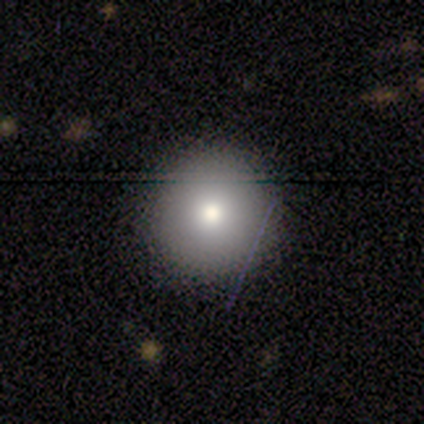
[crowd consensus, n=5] This appears to be a featured or disk galaxy (60%) with no bar (100%), no spiral arms (100%) and a moderate central bulge (100%). Merging: none (100%).